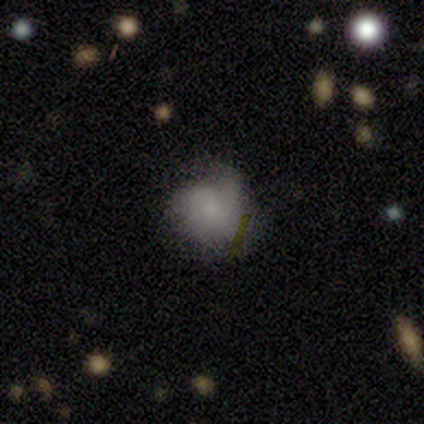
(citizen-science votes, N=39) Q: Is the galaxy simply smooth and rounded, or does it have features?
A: smooth — 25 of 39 (64%).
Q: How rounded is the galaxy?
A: round — 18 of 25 (72%).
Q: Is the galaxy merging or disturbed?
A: none — 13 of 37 (35%).